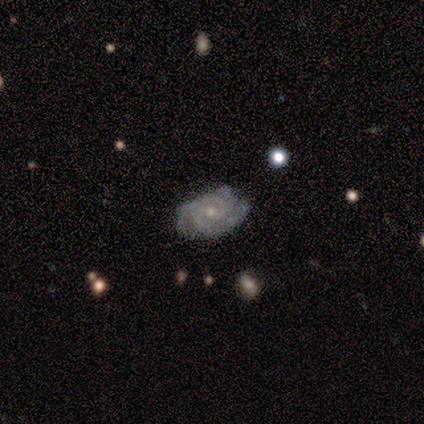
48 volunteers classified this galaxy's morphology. A featured or disk galaxy (88%) with no bar (74%), 2 (35%) tight (81%) spiral arms (88%) and a small central bulge (79%).

Vote fractions:
- Smooth or featured? featured or disk: 88% / smooth: 8% / star or artifact: 4%
- Edge-on disk? no: 100% / yes: 0%
- Bar? no: 74% / weak: 26% / strong: 0%
- Spiral arms? yes: 88% / no: 12%
- Spiral winding? tight: 81% / medium: 16% / loose: 3%
- Spiral arm count? 2: 35% / 3: 32% / can't tell: 27% / 4: 5% / 1: 0% / more than 4: 0%
- Bulge size? small: 79% / moderate: 19% / none: 2% / dominant: 0% / large: 0%
- Merging? none: 72% / minor disturbance: 28% / major disturbance: 0% / merger: 0%